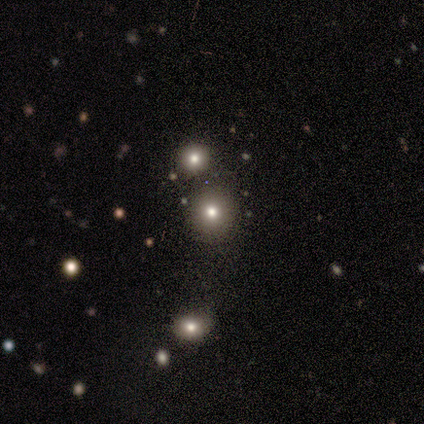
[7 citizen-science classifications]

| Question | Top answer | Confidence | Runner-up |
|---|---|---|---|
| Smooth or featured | smooth | 57% | star or artifact (43%) |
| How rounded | round | 100% | — |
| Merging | none | 100% | — |